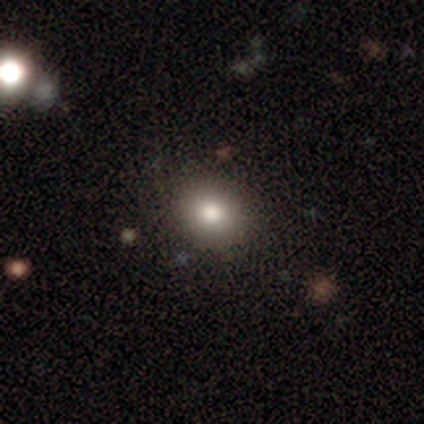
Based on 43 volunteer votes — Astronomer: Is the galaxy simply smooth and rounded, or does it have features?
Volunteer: smooth — 58%.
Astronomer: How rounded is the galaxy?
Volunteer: round — 64%.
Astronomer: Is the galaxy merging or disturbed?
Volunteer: none — 87%.